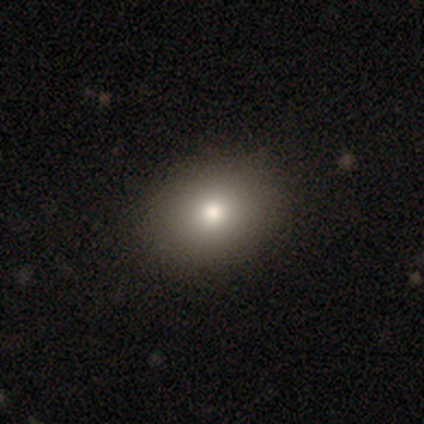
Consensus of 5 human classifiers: smooth 80%, star or artifact 20%, featured or disk 0%. Down the decision tree: how rounded — round (50%, tied with in between); merging — none (100%).